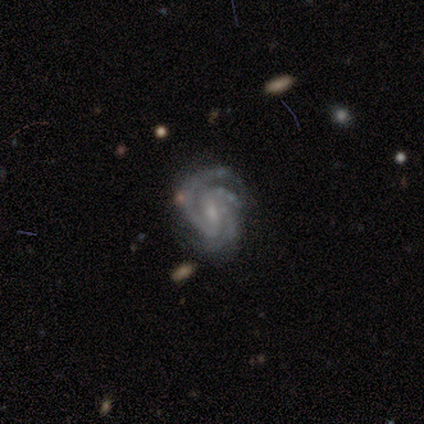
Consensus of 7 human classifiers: Smooth or featured? 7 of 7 (100%) said featured or disk. Edge-on disk? 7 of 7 (100%) said no. Bar? 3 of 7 (43%) said no. Spiral arms? 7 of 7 (100%) said yes. Spiral winding? 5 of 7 (71%) said medium. Spiral arm count? 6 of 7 (86%) said 3. Bulge size? 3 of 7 (43%, tied with small) said moderate. Merging? 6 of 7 (86%) said none.